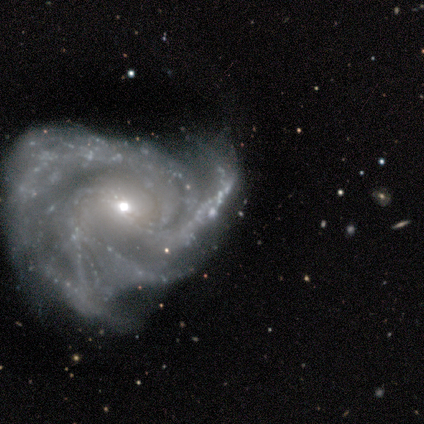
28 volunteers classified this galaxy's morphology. Overall: featured or disk (93%). Edge-on disk: no (96%). Bar: no (52%; weak 28%). Spiral arms: yes (92%). Spiral arm count: 4 (35%; 3 26%). Spiral winding: medium (61%; tight 30%). Bulge size: small (48%; moderate 44%). Merging: none (58%; minor disturbance 23%).